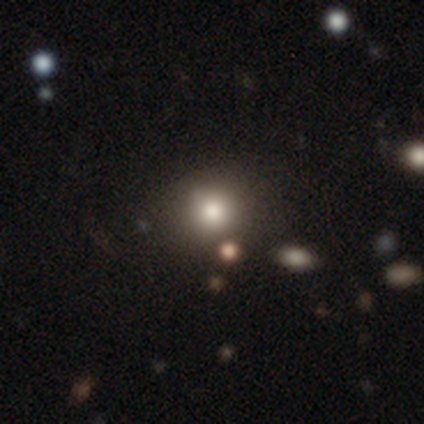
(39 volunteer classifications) Volunteers were most divided on "smooth or featured": smooth: 74%, star or artifact: 21%, featured or disk: 5%. More confident: how rounded — round (83%); merging — none (81%).